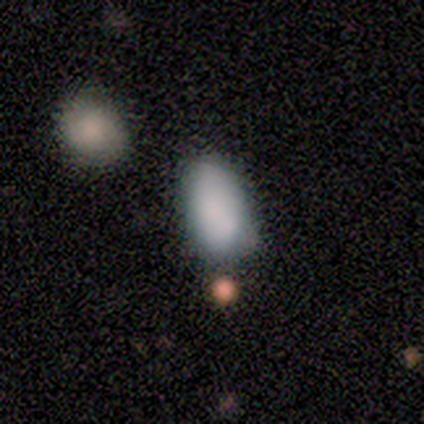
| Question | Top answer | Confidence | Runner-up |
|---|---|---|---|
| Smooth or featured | smooth | 100% | — |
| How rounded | in between | 80% | round (20%) |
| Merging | none | 80% | major disturbance (20%) |